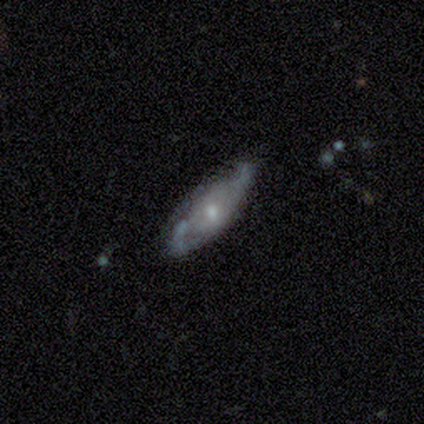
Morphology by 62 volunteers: This is likely a featured or disk galaxy (73%). It is clearly not viewed edge-on (84%). Bar: likely no (76%). Spiral arm pattern: likely yes (63%). Spiral arm count: possibly 2 (50%). Spiral winding: marginally medium (42%). Central bulge: possibly moderate (53%). Merging: possibly none (48%).